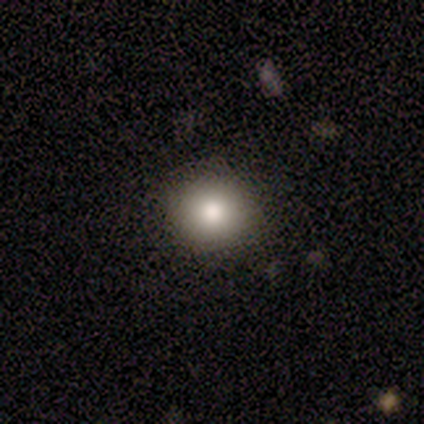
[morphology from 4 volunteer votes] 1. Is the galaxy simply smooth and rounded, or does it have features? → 75% smooth, 25% featured or disk, 0% star or artifact.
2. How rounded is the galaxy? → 100% round, 0% in between, 0% cigar-shaped.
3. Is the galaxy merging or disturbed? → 75% none, 25% minor disturbance, 0% major disturbance, 0% merger.